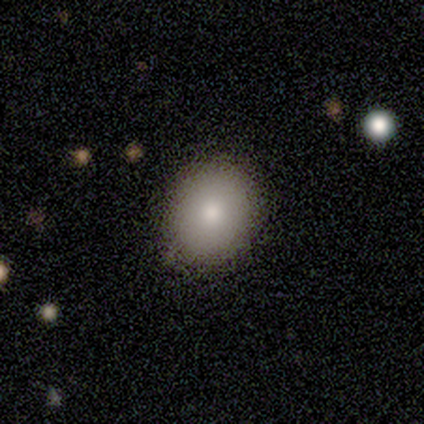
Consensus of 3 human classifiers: Smooth or featured?
  - smooth: 100% *
  - featured or disk: 0%
  - star or artifact: 0%
How rounded?
  - round: 67% *
  - in between: 33%
  - cigar-shaped: 0%
Merging?
  - none: 100% *
  - minor disturbance: 0%
  - major disturbance: 0%
  - merger: 0%